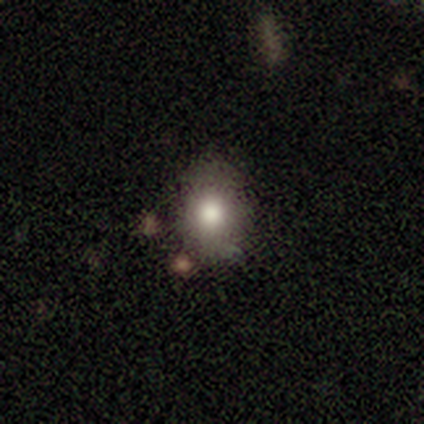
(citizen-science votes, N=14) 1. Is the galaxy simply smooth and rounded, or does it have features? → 86% smooth, 7% featured or disk, 7% star or artifact.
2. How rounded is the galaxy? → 75% in between, 25% round, 0% cigar-shaped.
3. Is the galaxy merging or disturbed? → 69% none, 23% minor disturbance, 8% major disturbance, 0% merger.